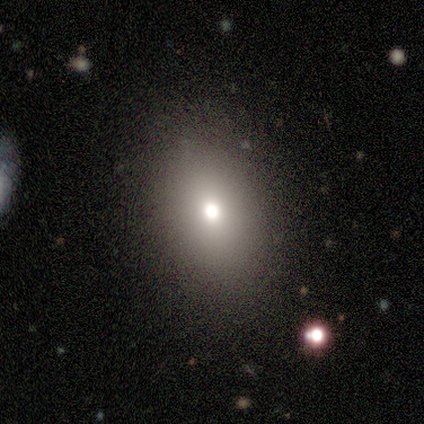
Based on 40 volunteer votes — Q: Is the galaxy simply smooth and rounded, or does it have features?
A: smooth — 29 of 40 (72%).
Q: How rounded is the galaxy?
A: in between — 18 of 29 (62%).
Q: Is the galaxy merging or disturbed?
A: none — 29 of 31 (94%).